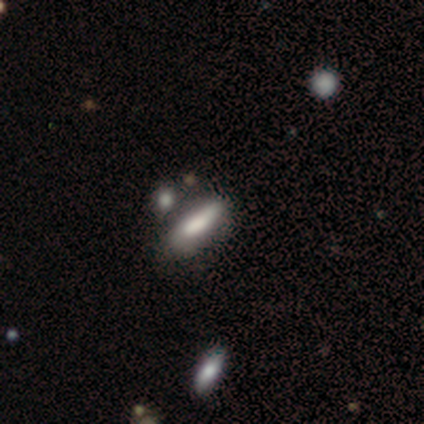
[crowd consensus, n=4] Smooth or featured: smooth — 50% (tied with featured or disk — 50%)
How rounded: cigar-shaped — 100%
Merging: none — 75% (minor disturbance — 25%)